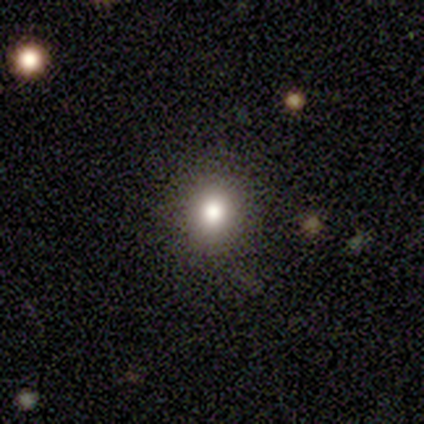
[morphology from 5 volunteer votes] This is clearly a smooth galaxy (80%). How rounded: clearly round (100%). Merging: clearly none (100%).